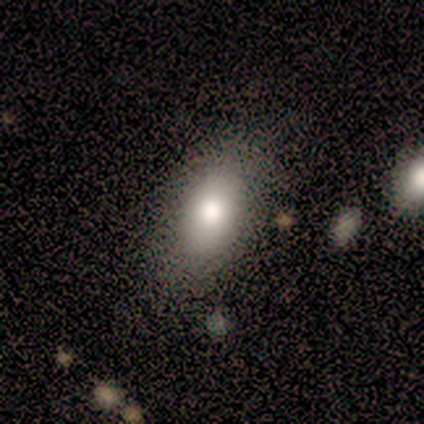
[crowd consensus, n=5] A smooth galaxy with no disk features (100%) that is in between round and cigar-shaped (100%).

Vote fractions:
- Smooth or featured? smooth: 100% / featured or disk: 0% / star or artifact: 0%
- How rounded? in between: 100% / round: 0% / cigar-shaped: 0%
- Merging? none: 80% / minor disturbance: 20% / major disturbance: 0% / merger: 0%